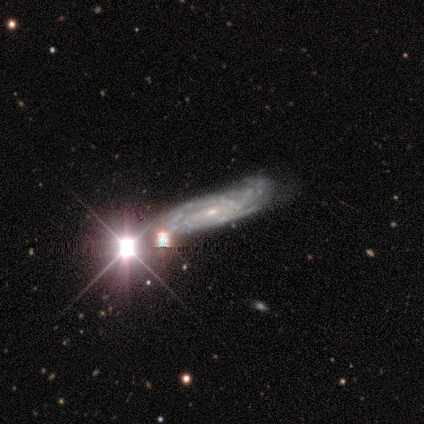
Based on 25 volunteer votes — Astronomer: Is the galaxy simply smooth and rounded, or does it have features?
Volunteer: featured or disk — 72%.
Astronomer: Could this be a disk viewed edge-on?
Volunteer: no — 89%.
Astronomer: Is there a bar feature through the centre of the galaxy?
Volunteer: no — 56%.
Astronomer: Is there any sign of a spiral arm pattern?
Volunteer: yes — 75%.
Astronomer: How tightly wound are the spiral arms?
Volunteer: tight — 67%.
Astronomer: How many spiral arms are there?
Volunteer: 3 — 50% (runner-up: can't tell, 42%).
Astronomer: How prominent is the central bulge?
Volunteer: small — 62%.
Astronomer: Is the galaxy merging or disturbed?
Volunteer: none — 42% (runner-up: minor disturbance, 37%).